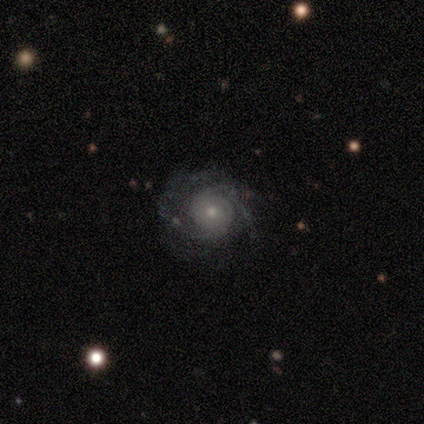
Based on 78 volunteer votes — smooth_or_featured: featured or disk (p=0.87) [alt: smooth p=0.12]
disk_edge_on: no (p=0.96) [alt: yes p=0.04]
bar: no (p=0.95) [alt: weak p=0.05]
has_spiral_arms: yes (p=0.95) [alt: no p=0.05]
spiral_winding: tight (p=0.61) [alt: medium p=0.26]
spiral_arm_count: can't tell (p=0.42) [alt: 2 p=0.23]
bulge_size: small (p=0.63) [alt: moderate p=0.26]
merging: none (p=0.38) [alt: minor disturbance p=0.06]